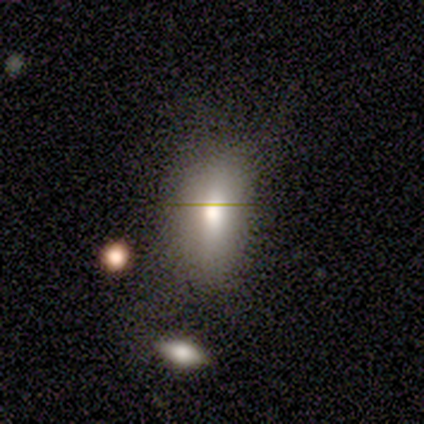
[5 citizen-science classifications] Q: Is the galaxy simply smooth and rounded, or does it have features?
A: smooth — 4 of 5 (80%).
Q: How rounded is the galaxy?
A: in between — 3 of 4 (75%).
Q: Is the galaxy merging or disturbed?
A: none — 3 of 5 (60%).